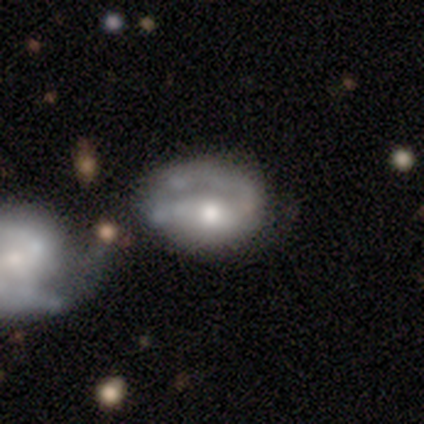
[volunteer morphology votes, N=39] This appears to be a featured or disk galaxy (82%) with no bar (69%), 1 (38%, tied with 2) tight (38%, tied with medium) spiral arms (66%) and a moderate central bulge (66%). Merging: merger (28%).